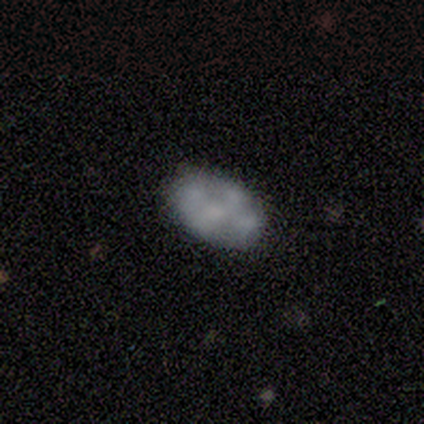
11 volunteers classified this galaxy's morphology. Smooth or featured? smooth (45%, tied with featured or disk)
How rounded? in between (100%)
Merging? none (90%)